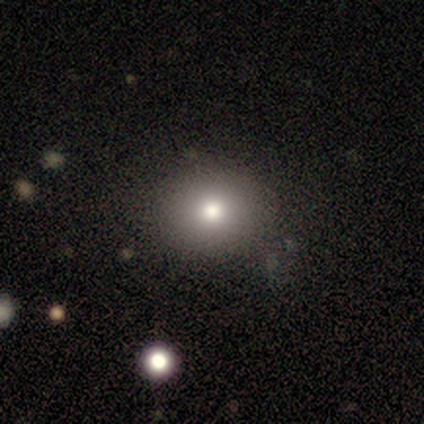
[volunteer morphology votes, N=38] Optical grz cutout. It shows a smooth galaxy with no disk features (76%) that is round (72%). Merging: none (94%).